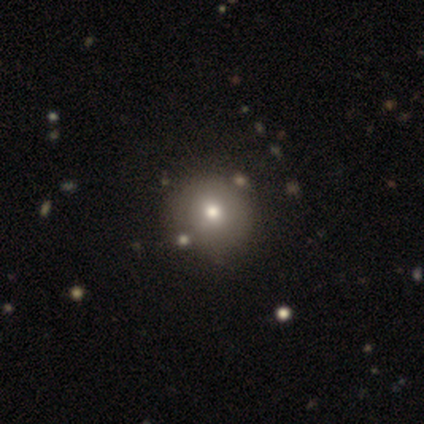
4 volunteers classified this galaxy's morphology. This appears to be a smooth galaxy with no disk features (75%) that is round (100%). Merging: none (75%).